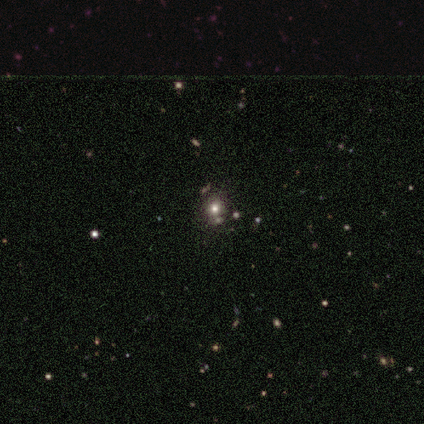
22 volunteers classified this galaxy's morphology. smooth 55%, star or artifact 41%, featured or disk 5%. Down the decision tree: how rounded — round (92%); merging — none (46%).